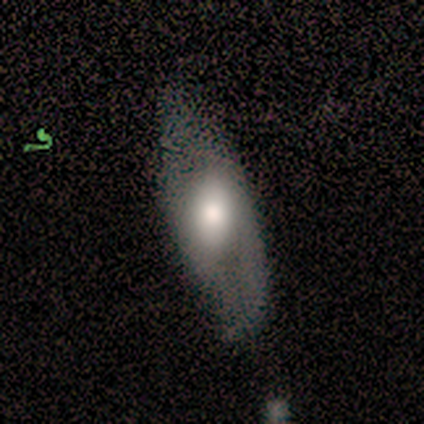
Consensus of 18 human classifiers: smooth_or_featured: featured or disk (p=0.50) [alt: smooth p=0.44]
disk_edge_on: no (p=0.78) [alt: yes p=0.22]
bar: weak (p=0.43) [tied with: no p=0.43]
has_spiral_arms: yes (p=0.57) [alt: no p=0.43]
spiral_winding: medium (p=0.75) [alt: tight p=0.25]
spiral_arm_count: 2 (p=0.75) [alt: can't tell p=0.25]
bulge_size: moderate (p=0.57) [alt: large p=0.43]
merging: none (p=0.65) [alt: minor disturbance p=0.29]